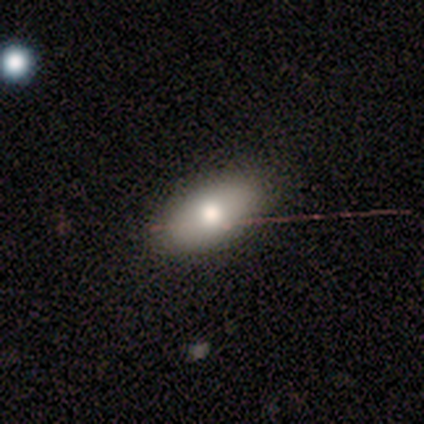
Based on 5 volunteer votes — smooth-or-featured: smooth: 60% | featured or disk: 20% | star or artifact: 20%
  how-rounded: in between: 100% | round: 0% | cigar-shaped: 0%
  merging: none: 75% | minor disturbance: 25% | major disturbance: 0% | merger: 0%